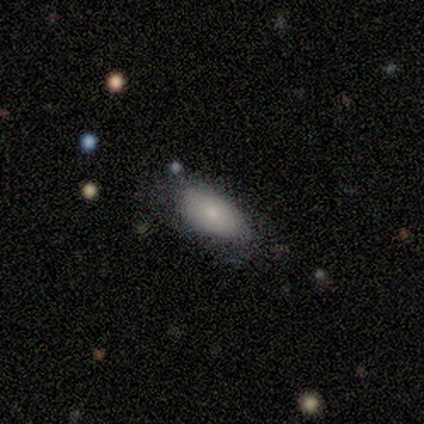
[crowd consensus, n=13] smooth_or_featured: smooth (p=0.77) [alt: star or artifact p=0.15]
how_rounded: in between (p=0.80) [alt: cigar-shaped p=0.20]
merging: none (p=0.73) [alt: minor disturbance p=0.18]